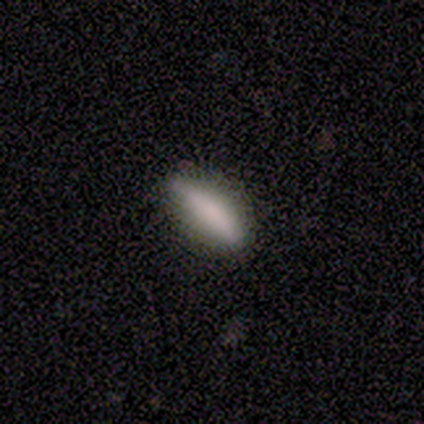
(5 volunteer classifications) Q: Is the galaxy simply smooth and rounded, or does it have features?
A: smooth — 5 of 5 (100%).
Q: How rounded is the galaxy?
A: in between — 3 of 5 (60%).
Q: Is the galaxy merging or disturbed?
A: none — 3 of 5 (60%).